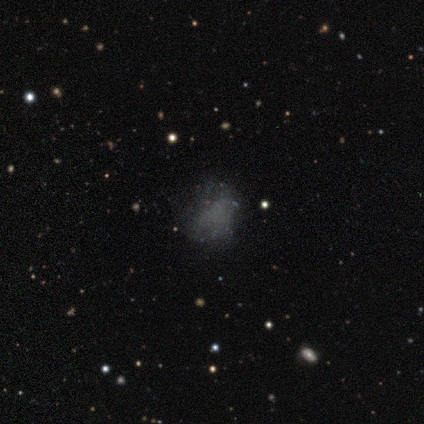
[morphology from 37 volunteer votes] Overall: featured or disk (43%; smooth 32%). Edge-on disk: no (100%). Bar: no (100%). Spiral arms: no (100%). Bulge size: none (94%). Merging: none (46%; major disturbance 32%).